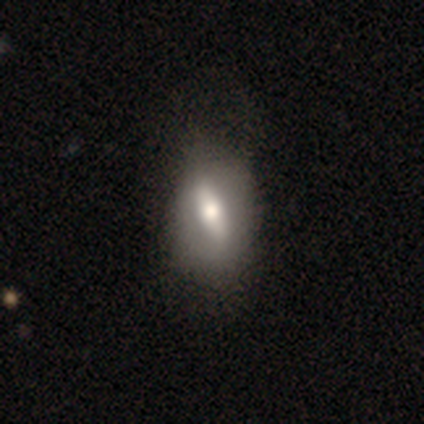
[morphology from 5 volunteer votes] Smooth or featured?
  - smooth: 60% *
  - featured or disk: 40%
  - star or artifact: 0%
How rounded?
  - round: 33% * (tied)
  - in between: 33% * (tied)
  - cigar-shaped: 33% * (tied)
Merging?
  - none: 60% *
  - minor disturbance: 40%
  - major disturbance: 0%
  - merger: 0%